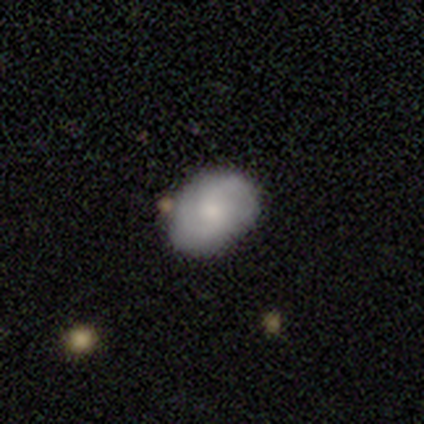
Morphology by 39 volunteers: A featured or disk galaxy (54%) with no bar (52%), 2 (71%) medium (62%) spiral arms (100%) and a moderate central bulge (62%). Merging: none (78%).